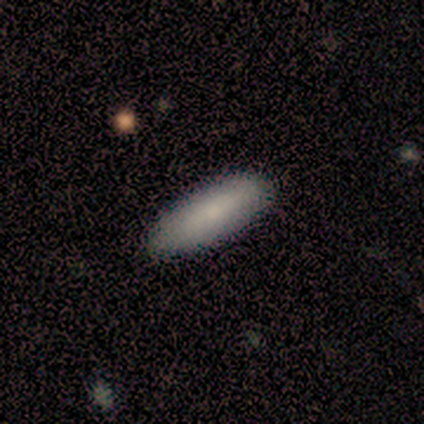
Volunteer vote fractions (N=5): Q: Smooth or featured?
A: smooth (100%)
Q: How rounded?
A: in between (60%); runner-up: cigar-shaped (40%)
Q: Merging?
A: none (100%)